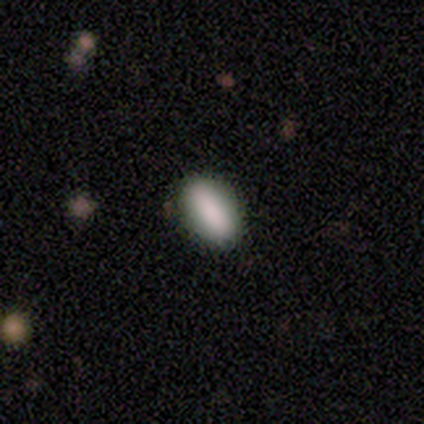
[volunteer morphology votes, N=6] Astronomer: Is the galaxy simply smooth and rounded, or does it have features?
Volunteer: smooth — 83%.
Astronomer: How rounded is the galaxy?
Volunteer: in between — 80%.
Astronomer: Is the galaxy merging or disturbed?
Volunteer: none — 100%.